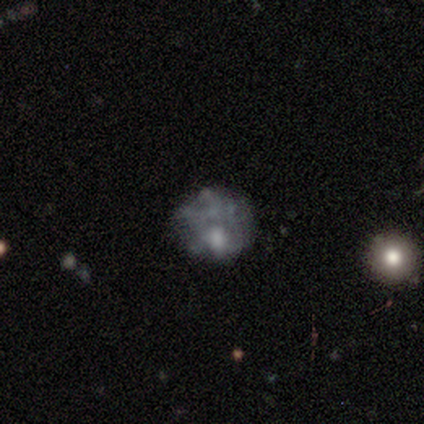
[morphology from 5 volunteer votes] featured or disk 80%, star or artifact 20%, smooth 0%. Down the decision tree: edge-on disk — no (100%); bar — no (100%); spiral arms — no (75%); bulge size — small (50%); merging — none (50%).